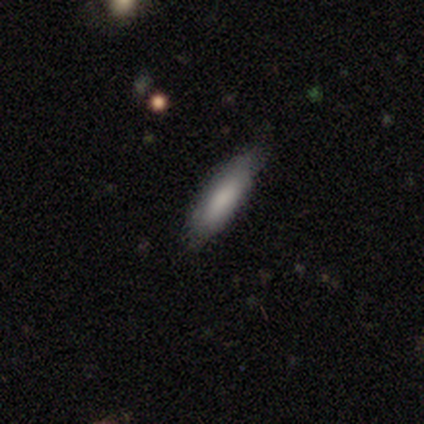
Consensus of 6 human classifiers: This appears to be a smooth galaxy with no disk features (100%) that is cigar-shaped (100%). Merging: none (67%).